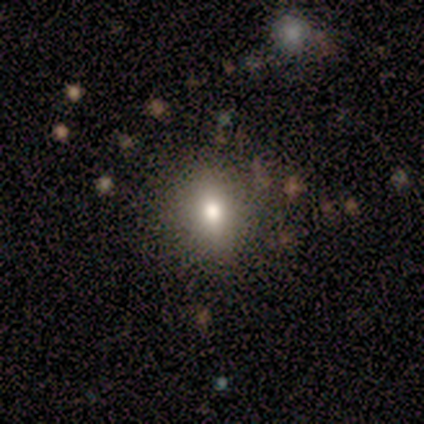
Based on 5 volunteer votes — Volunteers were most divided on "how rounded": in between: 67%, round: 33%, cigar-shaped: 0%. More confident: merging — none (100%); smooth or featured — smooth (60%).